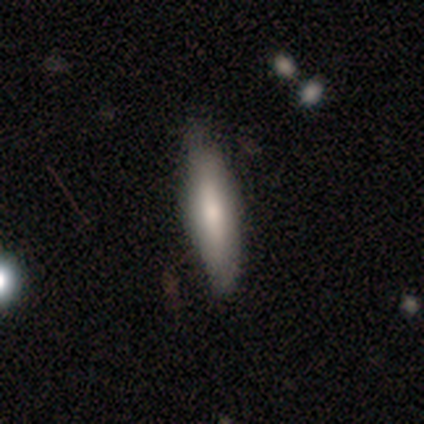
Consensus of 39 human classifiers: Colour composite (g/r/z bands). It shows a smooth galaxy with no disk features (59%) that is cigar-shaped (52%). Merging: none (49%).